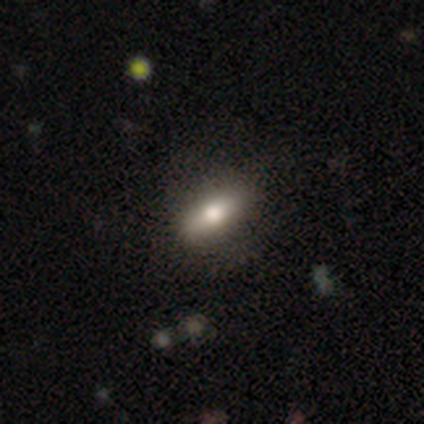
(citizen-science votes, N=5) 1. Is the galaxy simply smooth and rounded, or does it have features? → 100% smooth, 0% featured or disk, 0% star or artifact.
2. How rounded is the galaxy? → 100% in between, 0% round, 0% cigar-shaped.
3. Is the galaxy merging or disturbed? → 100% none, 0% minor disturbance, 0% major disturbance, 0% merger.